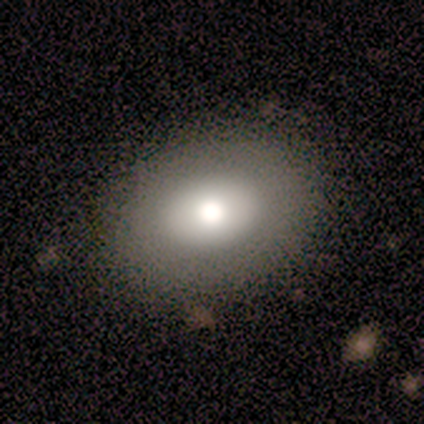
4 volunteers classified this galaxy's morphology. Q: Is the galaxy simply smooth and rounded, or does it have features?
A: smooth — 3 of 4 (75%).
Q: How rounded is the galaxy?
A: in between — 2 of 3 (67%).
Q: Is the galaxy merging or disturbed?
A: none — 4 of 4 (100%).